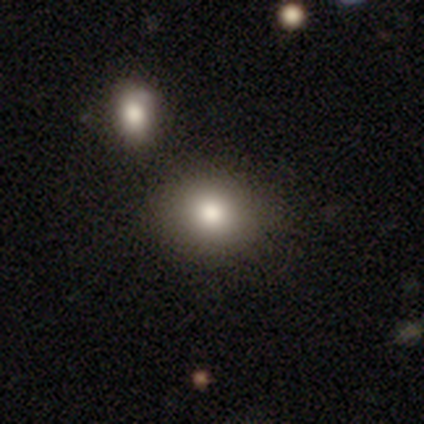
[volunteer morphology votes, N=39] This appears to be a smooth galaxy with no disk features (67%) that is round (54%). Merging: none (73%).